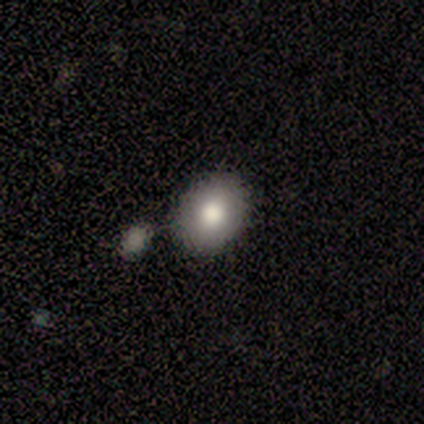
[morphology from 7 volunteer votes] smooth-or-featured: smooth: 86% | featured or disk: 14% | star or artifact: 0%
  how-rounded: round: 50% (tied) | in between: 50% (tied) | cigar-shaped: 0%
  merging: none: 57% | minor disturbance: 29% | merger: 14% | major disturbance: 0%